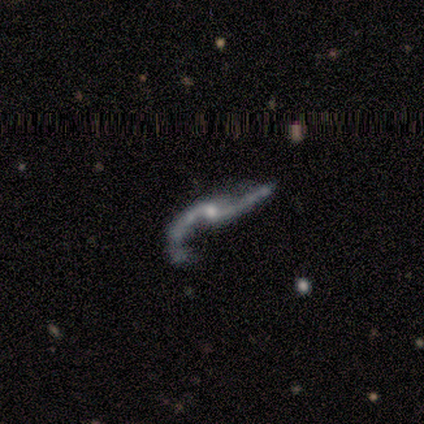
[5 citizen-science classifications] smooth_or_featured: featured or disk (p=1.00)
disk_edge_on: no (p=0.80) [alt: yes p=0.20]
bar: no (p=0.75) [alt: strong p=0.25]
has_spiral_arms: yes (p=1.00)
spiral_winding: loose (p=0.75) [alt: medium p=0.25]
spiral_arm_count: 2 (p=0.75) [alt: 1 p=0.25]
bulge_size: small (p=1.00)
merging: none (p=0.60) [alt: major disturbance p=0.40]